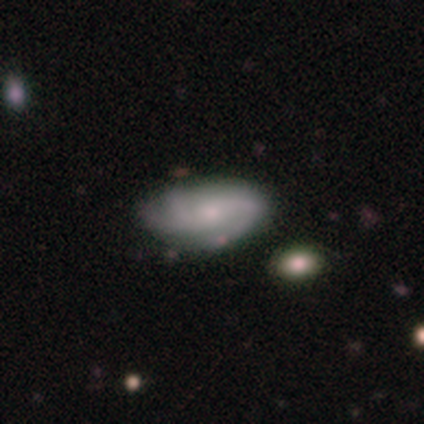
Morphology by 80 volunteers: smooth_or_featured: featured or disk (p=0.59) [alt: smooth p=0.36]
disk_edge_on: no (p=0.94) [alt: yes p=0.06]
bar: no (p=0.68) [alt: weak p=0.30]
has_spiral_arms: yes (p=0.93) [alt: no p=0.07]
spiral_winding: medium (p=0.39) [alt: loose p=0.32]
spiral_arm_count: 2 (p=0.41) [alt: 3 p=0.37]
bulge_size: small (p=0.52) [alt: moderate p=0.39]
merging: none (p=0.29) [alt: minor disturbance p=0.21]